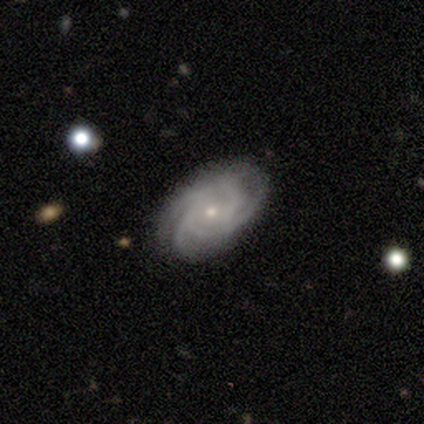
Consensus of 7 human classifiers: Morphology: type=featured or disk (86%); edge-on=no (100%); bar=no (100%); spiral arms=yes (100%); winding=tight (50%); arm count=3 (50%); bulge=small (83%); merging=none (86%).